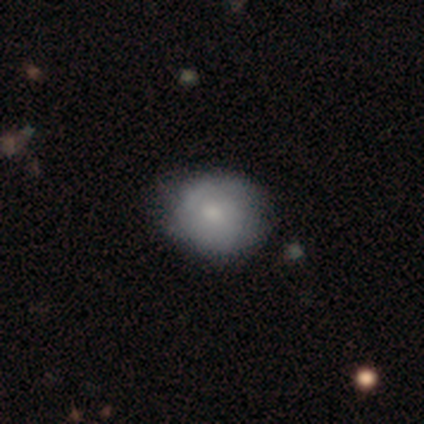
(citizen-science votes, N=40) smooth_or_featured: smooth (p=0.60) [alt: featured or disk p=0.38]
how_rounded: round (p=0.75) [alt: in between p=0.21]
merging: none (p=0.56) [alt: minor disturbance p=0.23]